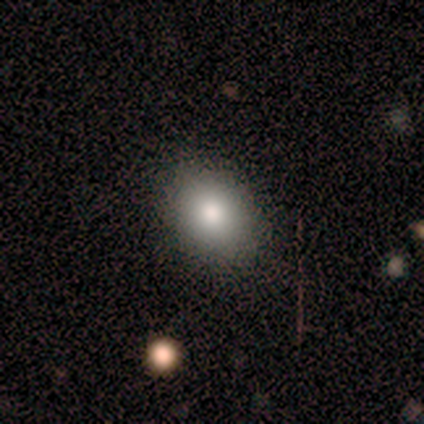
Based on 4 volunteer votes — Overall: smooth (100%). How rounded: in between (75%). Merging: none (100%).